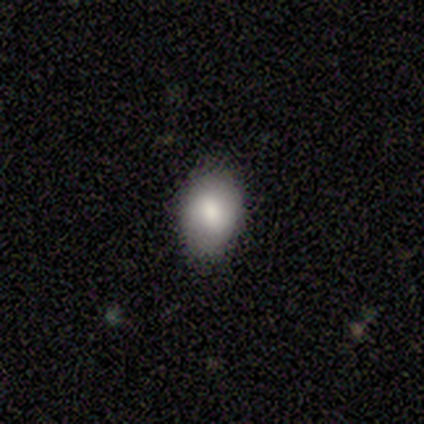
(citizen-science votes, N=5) Volunteers were most divided on "smooth or featured": smooth: 60%, featured or disk: 40%, star or artifact: 0%. More confident: merging — none (100%); how rounded — in between (67%).